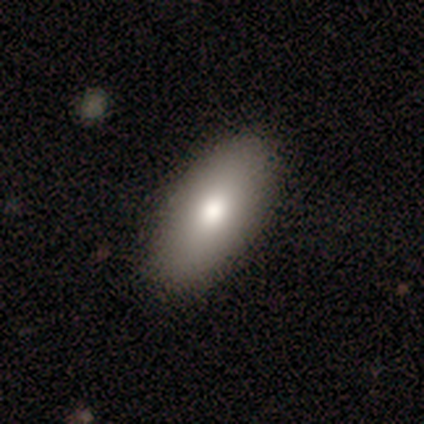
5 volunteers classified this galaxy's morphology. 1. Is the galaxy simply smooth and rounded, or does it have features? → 60% smooth, 20% featured or disk, 20% star or artifact.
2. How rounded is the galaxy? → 67% in between, 33% round, 0% cigar-shaped.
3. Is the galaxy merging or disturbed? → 100% none, 0% minor disturbance, 0% major disturbance, 0% merger.